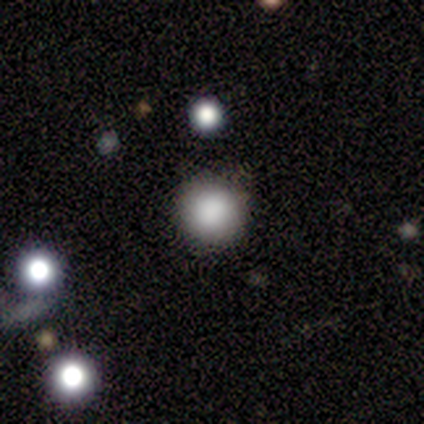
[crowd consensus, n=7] Volunteers were most divided on "merging": none: 83%, minor disturbance: 17%, major disturbance: 0%, merger: 0%. More confident: how rounded — round (100%); smooth or featured — smooth (86%).